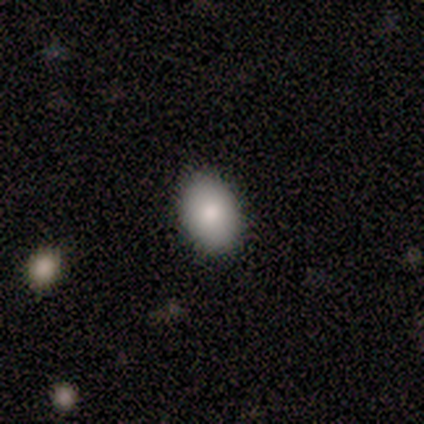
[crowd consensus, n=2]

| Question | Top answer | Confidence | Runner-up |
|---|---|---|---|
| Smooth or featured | smooth | 100% | — |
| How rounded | in between | 100% | — |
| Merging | minor disturbance | 100% | — |